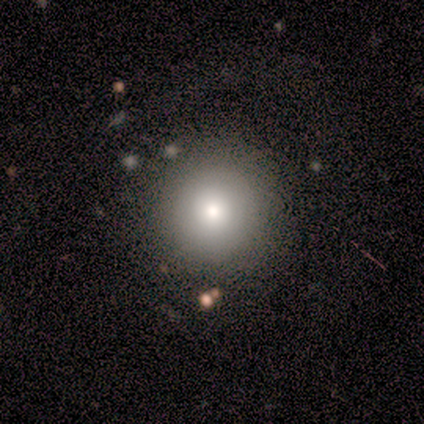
A smooth galaxy with no disk features (100%) that is round (100%). Merging: none (60%).